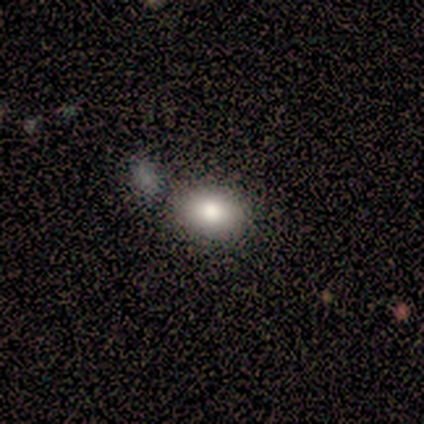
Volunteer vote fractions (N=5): Overall: smooth (80%). How rounded: in between (75%). Merging: none (80%).